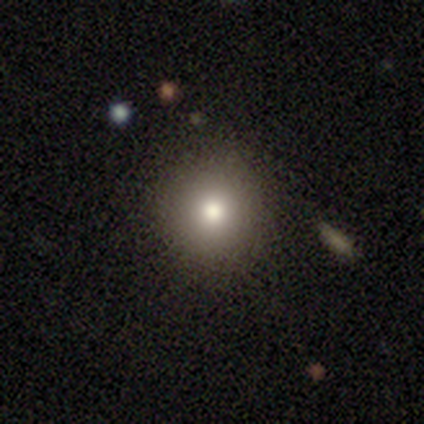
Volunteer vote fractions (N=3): Smooth or featured? smooth (67%)
How rounded? round (100%)
Merging? none (100%)